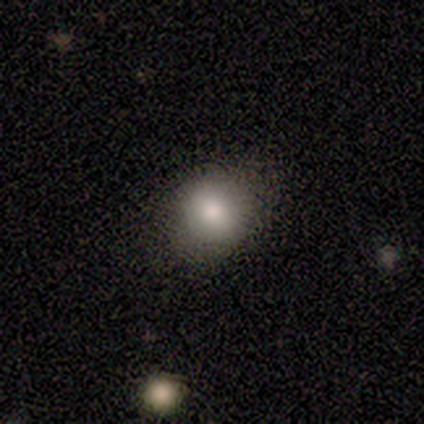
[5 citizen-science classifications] Volunteers were most divided on "how rounded": round: 60%, in between: 40%, cigar-shaped: 0%. More confident: smooth or featured — smooth (100%); merging — none (80%).